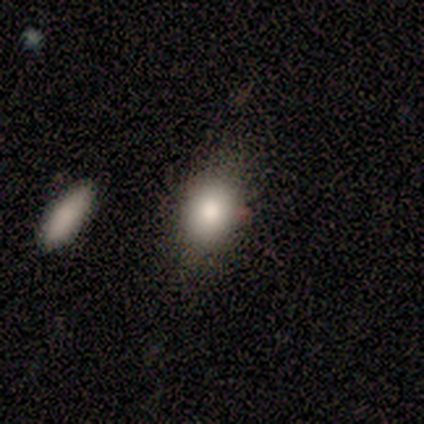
smooth-or-featured: smooth: 100% | featured or disk: 0% | star or artifact: 0%
  how-rounded: in between: 100% | round: 0% | cigar-shaped: 0%
  merging: minor disturbance: 60% | none: 40% | major disturbance: 0% | merger: 0%